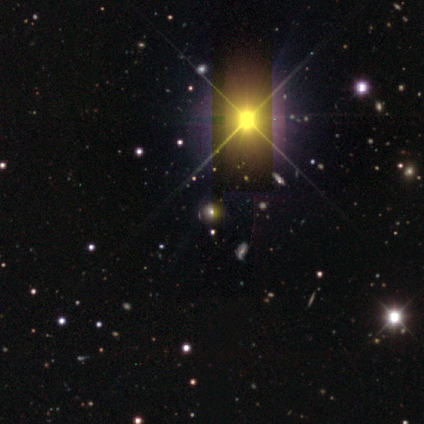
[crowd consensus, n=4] Q: Smooth or featured?
A: star or artifact (100%)